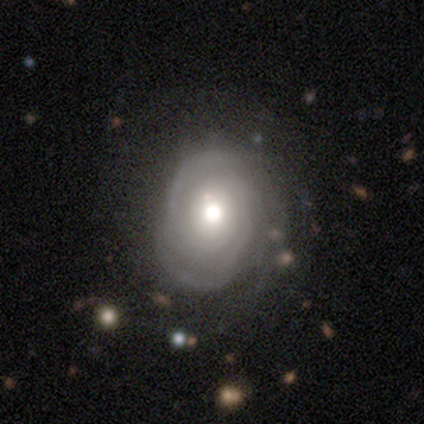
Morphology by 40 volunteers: type=featured or disk (75%); edge-on=no (97%); bar=no (83%); spiral arms=yes (97%); winding=tight (82%); arm count=2 (32%, tied with 3); bulge=moderate (66%); merging=none (66%).